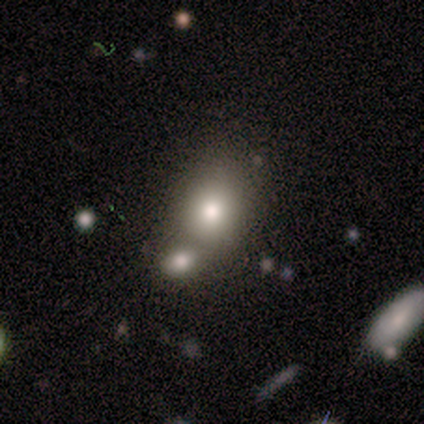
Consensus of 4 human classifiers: Smooth or featured? 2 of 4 (50%) said smooth. How rounded? 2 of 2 (100%) said in between. Merging? 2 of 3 (67%) said merger.